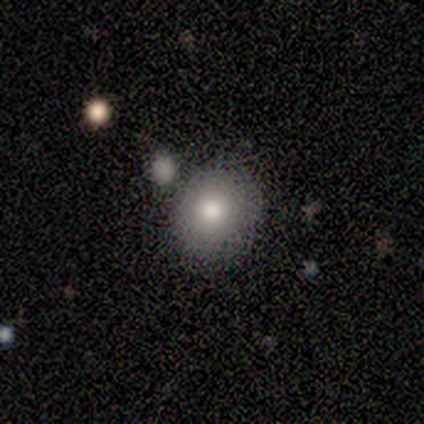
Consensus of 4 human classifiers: Smooth or featured?
  - smooth: 50% * (tied)
  - featured or disk: 50% * (tied)
  - star or artifact: 0%
How rounded?
  - round: 50% * (tied)
  - in between: 50% * (tied)
  - cigar-shaped: 0%
Merging?
  - none: 50% * (tied)
  - minor disturbance: 50% * (tied)
  - major disturbance: 0%
  - merger: 0%